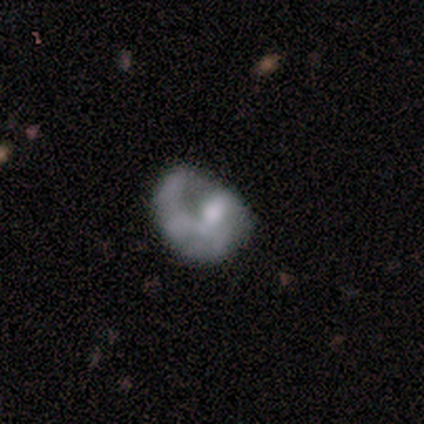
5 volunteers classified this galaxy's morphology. This appears to be a featured or disk galaxy (60%) with no bar (100%), 1 (67%) tight (33%, tied with medium and loose) spiral arms (100%) and a moderate central bulge (100%). Merging: minor disturbance (80%).